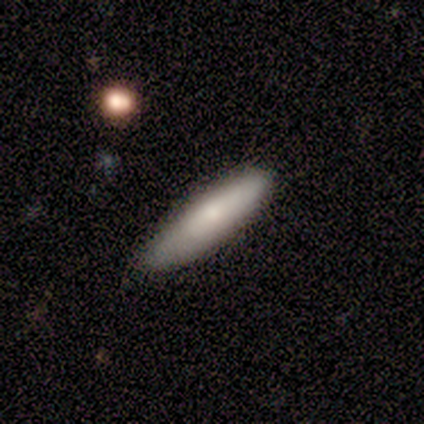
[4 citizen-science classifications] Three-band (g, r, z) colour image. It shows a smooth galaxy with no disk features (75%) that is cigar-shaped (100%). Merging: none (75%).